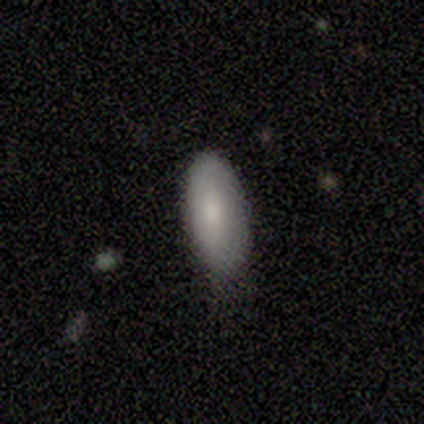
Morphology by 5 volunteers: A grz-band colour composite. It shows a smooth galaxy with no disk features (100%) that is in between round and cigar-shaped (100%). Merging: none (80%).